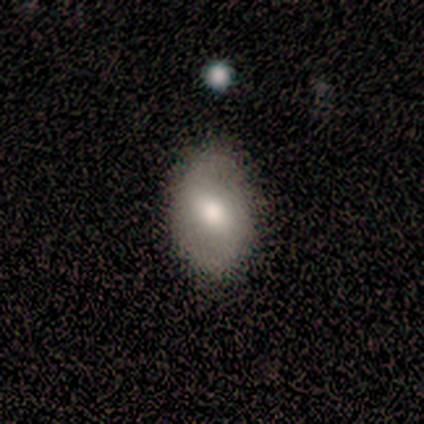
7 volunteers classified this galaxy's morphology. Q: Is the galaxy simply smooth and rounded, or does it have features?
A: featured or disk — 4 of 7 (57%).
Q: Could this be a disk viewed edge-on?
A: no — 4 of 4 (100%).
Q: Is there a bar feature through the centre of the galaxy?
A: weak — 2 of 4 (50%).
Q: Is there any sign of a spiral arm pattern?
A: yes — 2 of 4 (50%, tied with no).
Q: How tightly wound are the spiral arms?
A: medium — 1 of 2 (50%, tied with loose).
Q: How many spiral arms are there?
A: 2 — 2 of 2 (100%).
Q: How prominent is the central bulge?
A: large — 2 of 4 (50%, tied with moderate).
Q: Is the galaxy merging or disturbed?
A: none — 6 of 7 (86%).